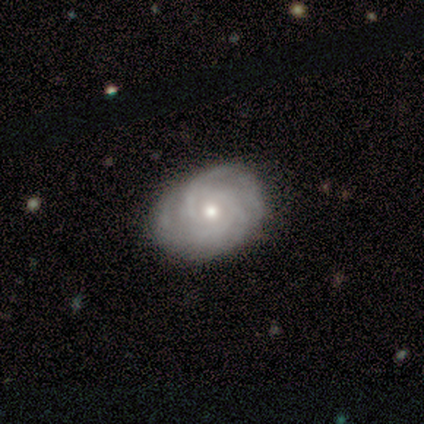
Morphology: type=featured or disk (100%); edge-on=no (100%); bar=no (80%); spiral arms=yes (100%); winding=tight (60%); arm count=can't tell (60%); bulge=small (60%); merging=none (100%).